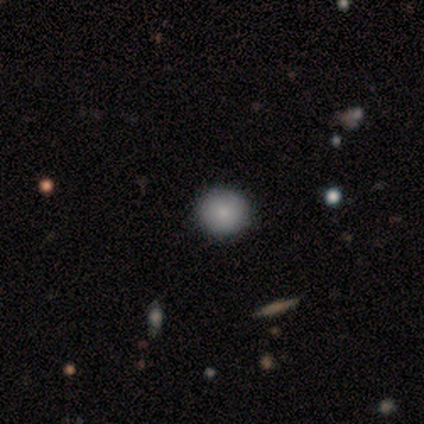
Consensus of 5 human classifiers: A smooth galaxy with no disk features (60%) that is round (100%).

Vote fractions:
- Smooth or featured? smooth: 60% / featured or disk: 40% / star or artifact: 0%
- How rounded? round: 100% / in between: 0% / cigar-shaped: 0%
- Merging? none: 100% / minor disturbance: 0% / major disturbance: 0% / merger: 0%